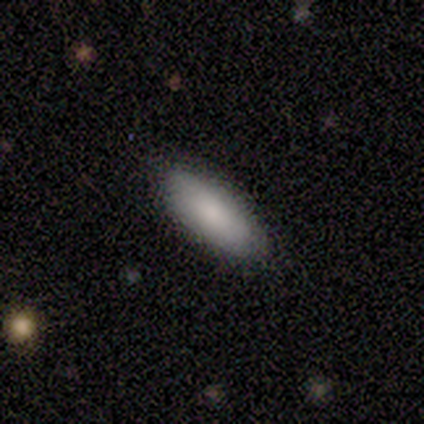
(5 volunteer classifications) smooth 80%, star or artifact 20%, featured or disk 0%. Down the decision tree: how rounded — in between (75%); merging — none (75%).